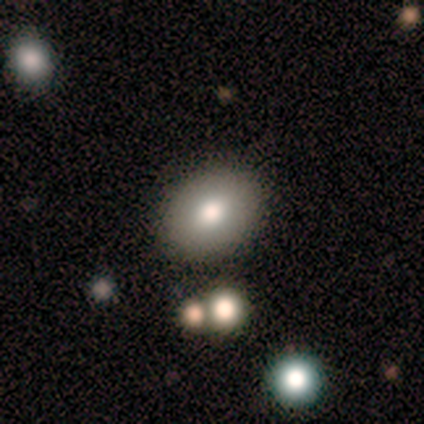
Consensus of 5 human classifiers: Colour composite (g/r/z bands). It shows a smooth galaxy with no disk features (80%) that is in between round and cigar-shaped (100%). Merging: none (100%).